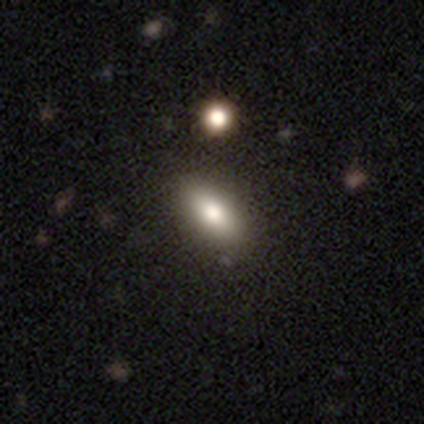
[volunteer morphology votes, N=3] Overall: smooth (67%; star or artifact 33%). How rounded: in between (50%, tied with cigar-shaped). Merging: none (100%).